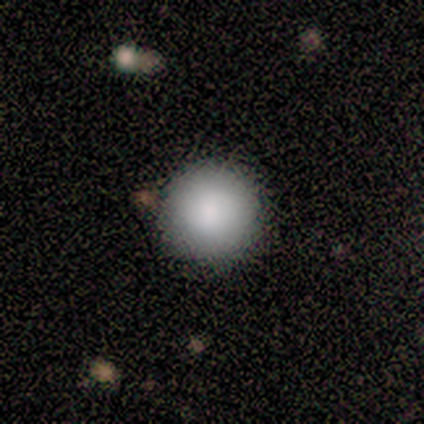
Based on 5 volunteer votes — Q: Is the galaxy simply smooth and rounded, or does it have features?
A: smooth — 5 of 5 (100%).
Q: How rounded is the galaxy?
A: round — 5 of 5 (100%).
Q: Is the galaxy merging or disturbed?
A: none — 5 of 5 (100%).